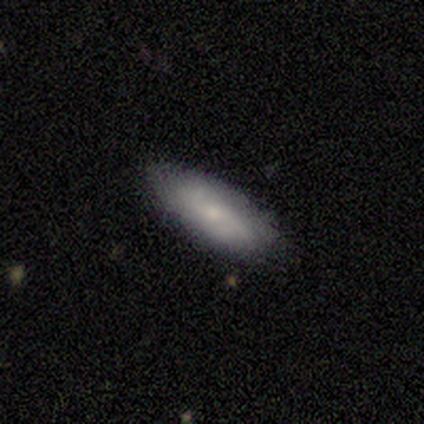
This appears to be a smooth galaxy with no disk features (55%) that is in between round and cigar-shaped (71%). Merging: none (92%).